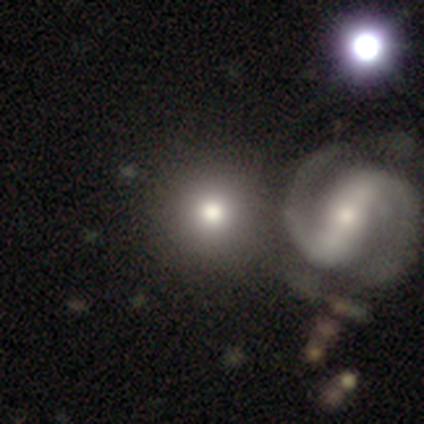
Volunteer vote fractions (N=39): This is likely a smooth galaxy (77%). How rounded: clearly round (100%). Merging: possibly none (46%).